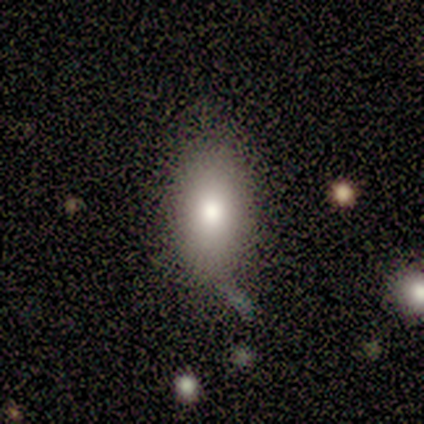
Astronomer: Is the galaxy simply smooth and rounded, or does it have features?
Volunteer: smooth — 80%.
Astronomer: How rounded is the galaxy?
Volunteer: in between — 100%.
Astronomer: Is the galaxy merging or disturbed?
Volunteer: none — 60%.